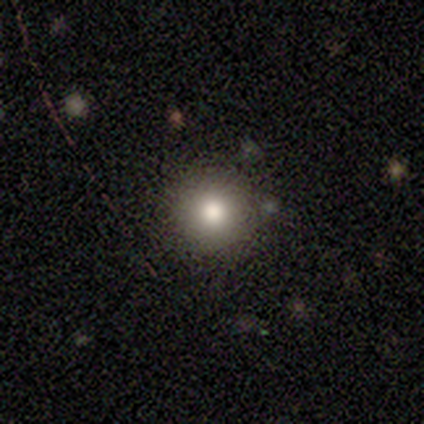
Q: Smooth or featured?
A: featured or disk (40%); tied with: star or artifact (40%)
Q: Edge-on disk?
A: no (100%)
Q: Bar?
A: no (100%)
Q: Spiral arms?
A: no (100%)
Q: Bulge size?
A: moderate (100%)
Q: Merging?
A: none (100%)